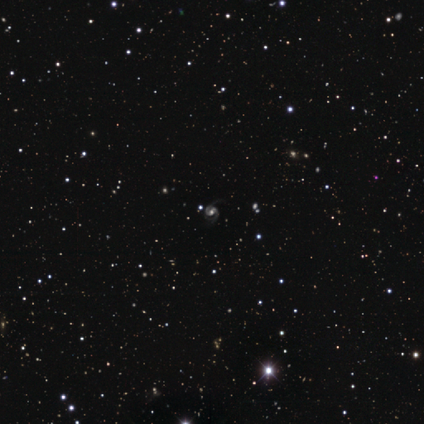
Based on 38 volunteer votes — Smooth or featured: featured or disk — 61% (star or artifact — 37%)
Edge-on disk: no — 96% (yes — 4%)
Bar: no — 45% (weak — 32%)
Spiral arms: yes — 100%
Spiral winding: medium — 55% (tight — 27%)
Spiral arm count: 2 — 64% (can't tell — 18%)
Bulge size: moderate — 50% (small — 27%)
Merging: none — 71% (major disturbance — 25%)